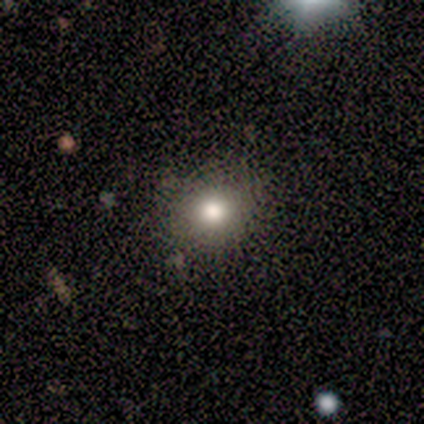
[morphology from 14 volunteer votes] A smooth galaxy with no disk features (86%) that is round (83%). Merging: none (86%).